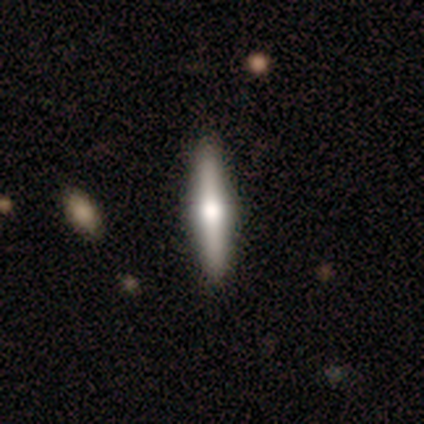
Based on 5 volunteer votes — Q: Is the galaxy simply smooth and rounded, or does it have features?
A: smooth — 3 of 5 (60%).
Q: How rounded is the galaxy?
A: cigar-shaped — 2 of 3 (67%).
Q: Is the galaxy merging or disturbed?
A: none — 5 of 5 (100%).